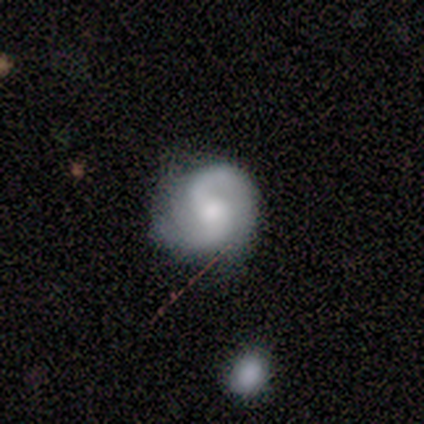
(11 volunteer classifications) Volunteers were most divided on "spiral winding": loose: 57%, medium: 29%, tight: 14%. More confident: spiral arms — yes (100%); spiral arm count — 2 (100%); bulge size — moderate (100%); merging — none (100%); edge-on disk — no (88%); smooth or featured — featured or disk (73%); bar — no (71%).